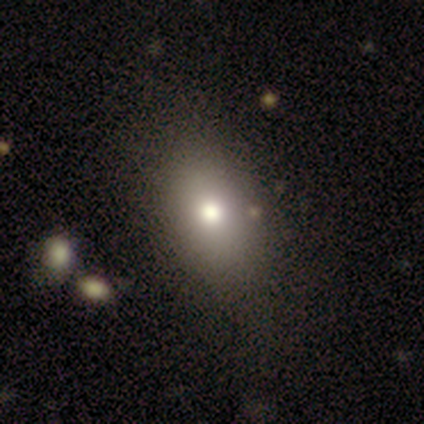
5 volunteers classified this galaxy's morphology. Smooth or featured? 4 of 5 (80%) said smooth. How rounded? 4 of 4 (100%) said in between. Merging? 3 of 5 (60%) said none.